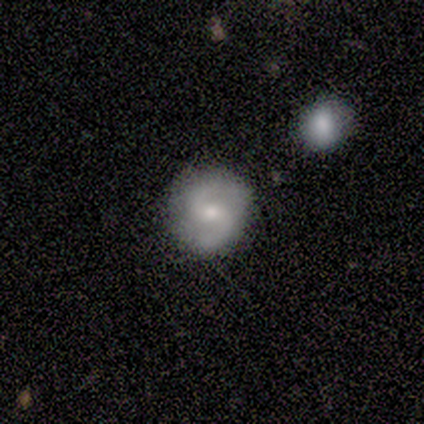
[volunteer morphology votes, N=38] type=featured or disk (71%); edge-on=no (100%); bar=no (59%); spiral arms=yes (96%); winding=medium (69%); arm count=2 (100%); bulge=moderate (44%, tied with small); merging=none (84%).